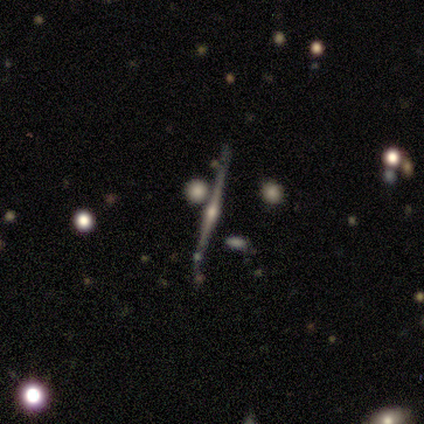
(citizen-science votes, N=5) smooth_or_featured: featured or disk (p=1.00)
disk_edge_on: yes (p=1.00)
edge_on_bulge: rounded (p=0.80) [alt: none p=0.20]
merging: minor disturbance (p=0.40) [tied with: merger p=0.40]